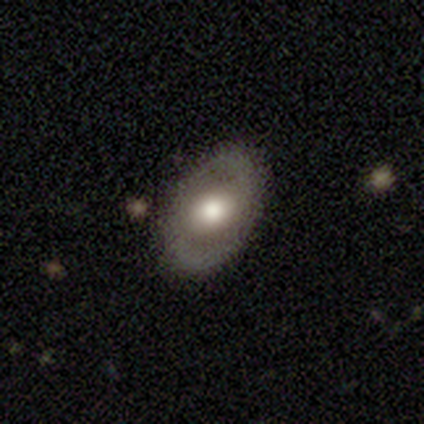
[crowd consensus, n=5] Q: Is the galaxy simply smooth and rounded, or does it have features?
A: featured or disk — 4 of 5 (80%).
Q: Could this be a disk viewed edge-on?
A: no — 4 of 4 (100%).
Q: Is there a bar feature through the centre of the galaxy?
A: no — 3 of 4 (75%).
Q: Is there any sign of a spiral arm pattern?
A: yes — 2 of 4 (50%, tied with no).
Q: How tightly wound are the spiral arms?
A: tight — 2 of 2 (100%).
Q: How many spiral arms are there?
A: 2 — 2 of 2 (100%).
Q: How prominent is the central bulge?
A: moderate — 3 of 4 (75%).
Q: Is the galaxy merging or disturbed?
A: none — 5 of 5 (100%).